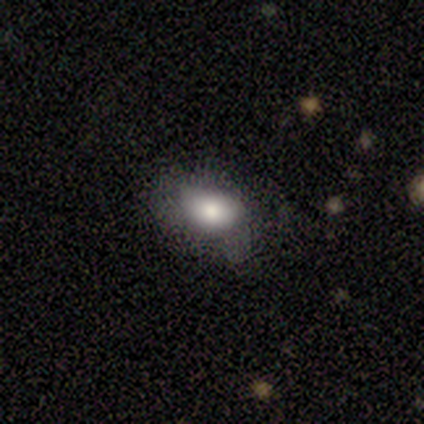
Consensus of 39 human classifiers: Smooth or featured? smooth (72%)
How rounded? in between (86%)
Merging? none (47%)